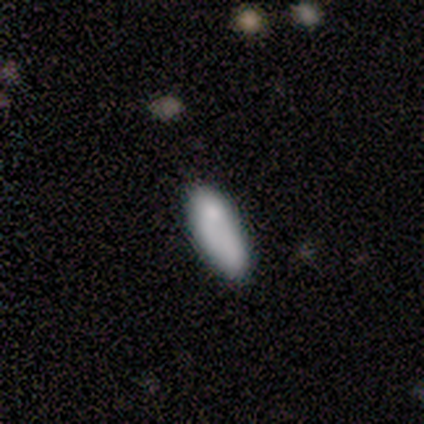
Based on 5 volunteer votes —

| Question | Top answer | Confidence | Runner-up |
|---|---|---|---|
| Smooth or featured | smooth | 60% | featured or disk (20%) |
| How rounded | in between | 67% | cigar-shaped (33%) |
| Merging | none | 75% | major disturbance (25%) |